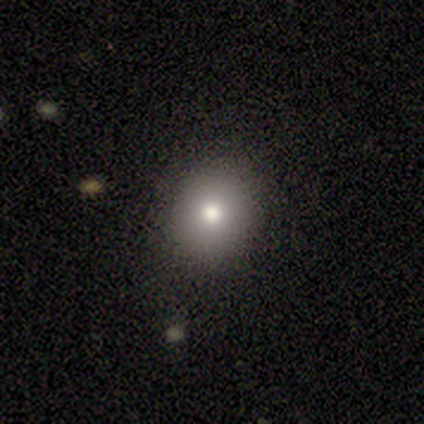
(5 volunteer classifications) Smooth or featured?
  - smooth: 100% *
  - featured or disk: 0%
  - star or artifact: 0%
How rounded?
  - round: 100% *
  - in between: 0%
  - cigar-shaped: 0%
Merging?
  - none: 80% *
  - major disturbance: 20%
  - minor disturbance: 0%
  - merger: 0%